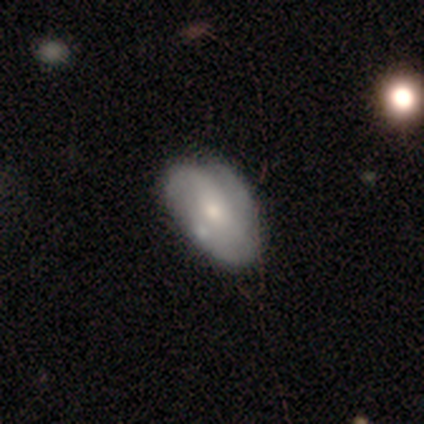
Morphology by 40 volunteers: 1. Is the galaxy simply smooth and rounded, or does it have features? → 52% featured or disk, 40% smooth, 8% star or artifact.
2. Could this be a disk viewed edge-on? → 95% no, 5% yes.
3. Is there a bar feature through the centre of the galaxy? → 65% no, 25% weak, 10% strong.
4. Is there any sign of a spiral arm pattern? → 60% yes, 40% no.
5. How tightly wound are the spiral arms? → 42% tight, 33% loose, 25% medium.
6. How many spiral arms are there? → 33% 2 (tied), 33% 3 (tied), 17% can't tell, 8% 1, 8% 4, 0% more than 4.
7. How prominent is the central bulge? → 50% small, 35% moderate, 10% large, 5% dominant, 0% none.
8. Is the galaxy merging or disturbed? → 51% none, 27% minor disturbance, 11% major disturbance, 11% merger.